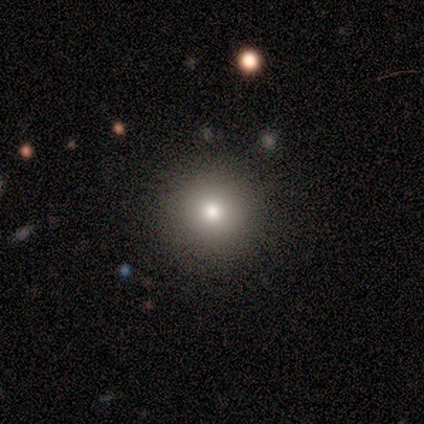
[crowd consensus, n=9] Smooth or featured? 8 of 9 (89%) said smooth. How rounded? 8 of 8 (100%) said round. Merging? 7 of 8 (88%) said none.